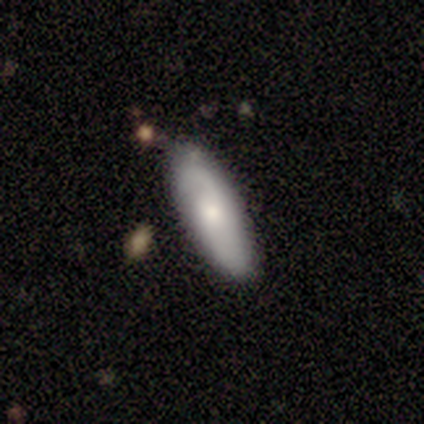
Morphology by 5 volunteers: Smooth or featured? smooth (80%)
How rounded? in between (50%, tied with cigar-shaped)
Merging? none (60%)